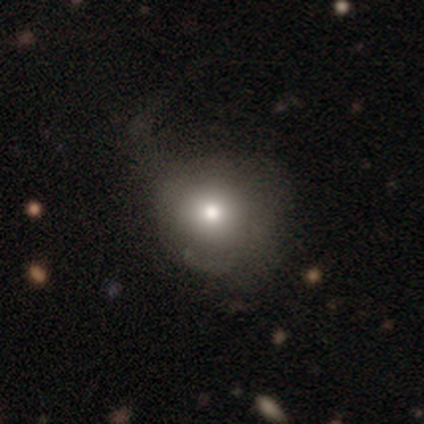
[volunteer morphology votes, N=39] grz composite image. It shows a smooth galaxy with no disk features (72%) that is round (93%). Merging: none (38%).